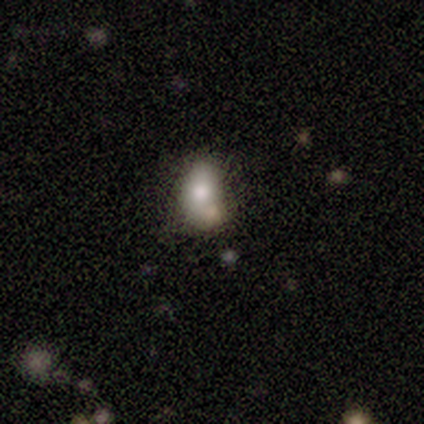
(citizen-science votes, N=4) This is clearly a smooth galaxy (100%). How rounded: clearly in between (100%). Merging: possibly minor disturbance (50%).